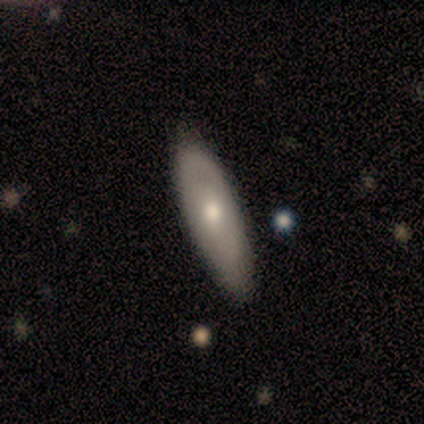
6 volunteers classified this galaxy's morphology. Smooth or featured?
  - smooth: 67% *
  - featured or disk: 33%
  - star or artifact: 0%
How rounded?
  - in between: 100% *
  - round: 0%
  - cigar-shaped: 0%
Merging?
  - none: 100% *
  - minor disturbance: 0%
  - major disturbance: 0%
  - merger: 0%